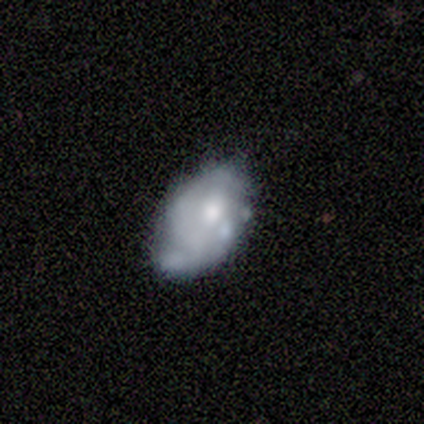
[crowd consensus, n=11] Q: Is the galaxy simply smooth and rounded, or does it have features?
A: featured or disk — 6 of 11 (55%).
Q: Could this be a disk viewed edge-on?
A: no — 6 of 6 (100%).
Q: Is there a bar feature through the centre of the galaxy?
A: no — 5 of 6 (83%).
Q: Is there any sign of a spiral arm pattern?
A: yes — 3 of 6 (50%, tied with no).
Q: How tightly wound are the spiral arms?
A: medium — 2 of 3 (67%).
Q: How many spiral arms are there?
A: can't tell — 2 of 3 (67%).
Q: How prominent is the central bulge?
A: small — 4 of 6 (67%).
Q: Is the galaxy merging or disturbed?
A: minor disturbance — 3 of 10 (30%, tied with major disturbance).